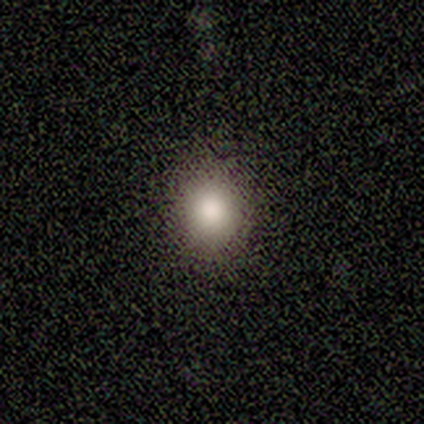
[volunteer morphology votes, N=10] smooth-or-featured: smooth: 80% | featured or disk: 10% | star or artifact: 10%
  how-rounded: round: 88% | in between: 12% | cigar-shaped: 0%
  merging: none: 89% | minor disturbance: 11% | major disturbance: 0% | merger: 0%